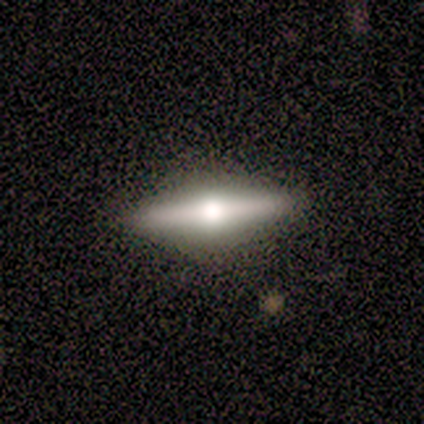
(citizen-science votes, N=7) Smooth or featured: featured or disk — 57% (smooth — 43%)
Edge-on disk: yes — 100%
Edge-on bulge: rounded — 100%
Merging: none — 100%